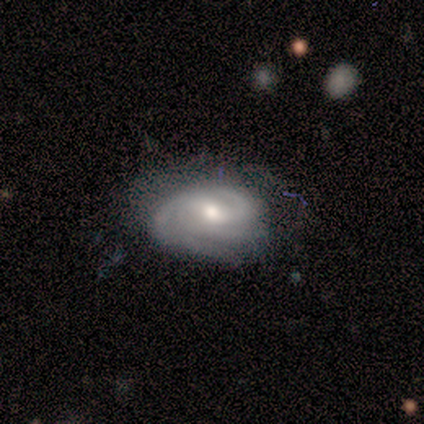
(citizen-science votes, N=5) Overall: featured or disk (80%). Edge-on disk: no (100%). Bar: weak (50%, tied with no). Spiral arms: yes (100%). Spiral arm count: 3 (75%). Spiral winding: tight (75%). Bulge size: moderate (75%). Merging: none (80%).